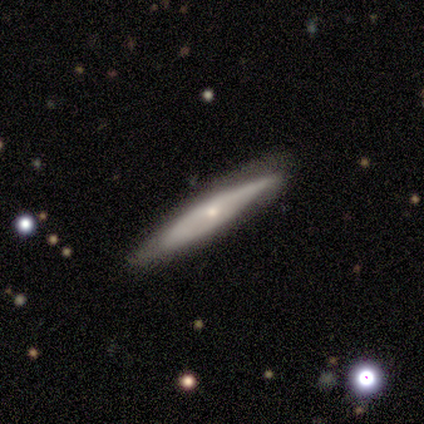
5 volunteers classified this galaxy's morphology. Smooth or featured? featured or disk (80%)
Edge-on disk? yes (75%)
Edge-on bulge? rounded (100%)
Merging? none (100%)